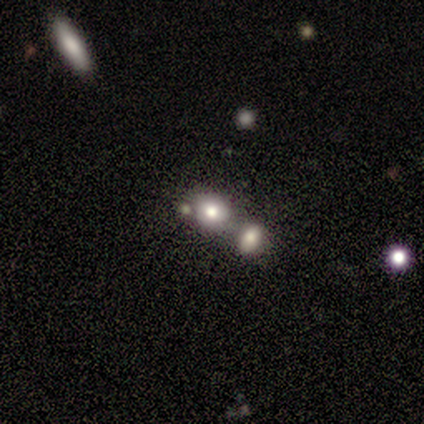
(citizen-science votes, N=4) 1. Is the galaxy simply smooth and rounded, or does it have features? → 75% smooth, 25% featured or disk, 0% star or artifact.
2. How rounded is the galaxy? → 100% round, 0% in between, 0% cigar-shaped.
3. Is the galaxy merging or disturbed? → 50% none (tied), 50% merger (tied), 0% minor disturbance, 0% major disturbance.